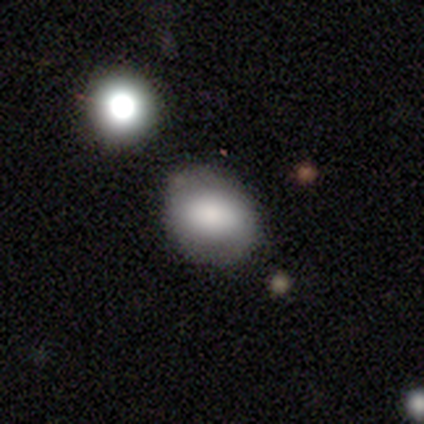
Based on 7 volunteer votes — Smooth or featured? smooth (86%)
How rounded? round (67%)
Merging? none (71%)